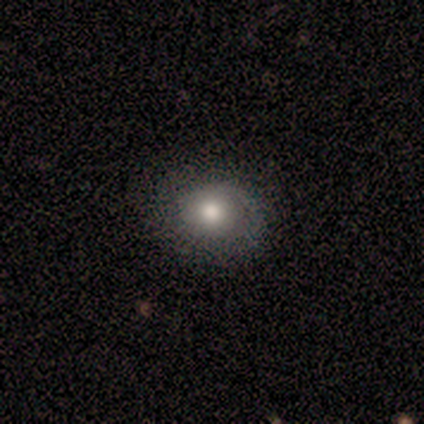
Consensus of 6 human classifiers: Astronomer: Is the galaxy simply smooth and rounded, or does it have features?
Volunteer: smooth — 50% (runner-up: featured or disk, 33%).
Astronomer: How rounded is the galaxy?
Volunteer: round — 100%.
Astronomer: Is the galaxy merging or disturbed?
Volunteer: none — 100%.